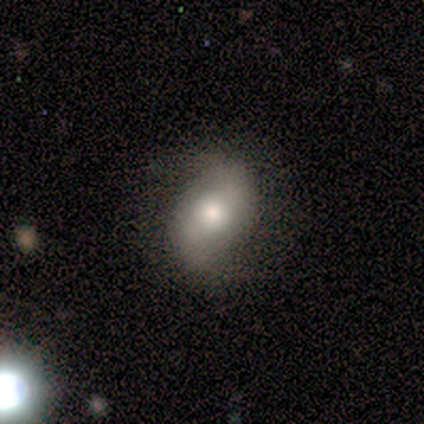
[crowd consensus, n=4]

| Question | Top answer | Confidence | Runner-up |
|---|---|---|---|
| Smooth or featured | smooth | 50% | tied: featured or disk (50%) |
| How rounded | in between | 100% | — |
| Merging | none | 75% | major disturbance (25%) |